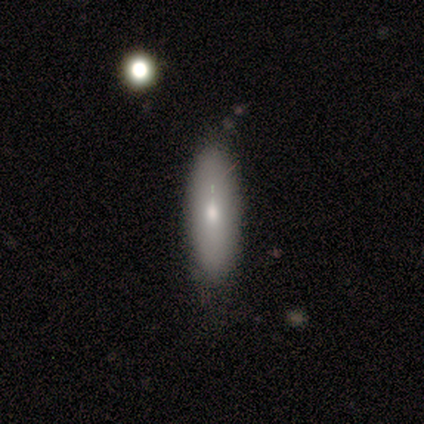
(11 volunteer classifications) A smooth galaxy with no disk features (73%) that is cigar-shaped (62%). Merging: none (82%).